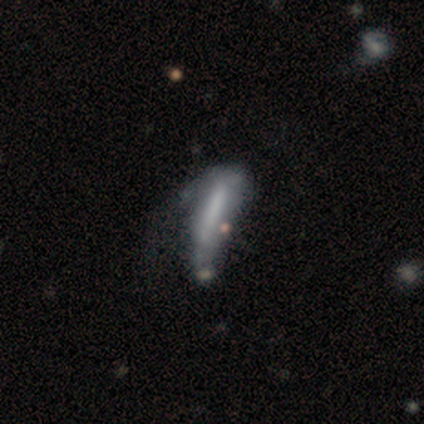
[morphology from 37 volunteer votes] Smooth or featured? 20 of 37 (54%) said smooth. How rounded? 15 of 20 (75%) said cigar-shaped. Merging? 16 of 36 (44%) said major disturbance.